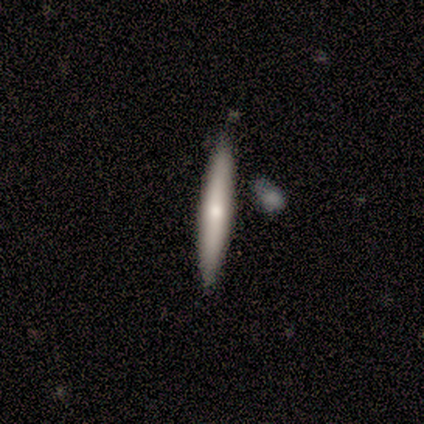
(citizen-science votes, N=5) Smooth or featured: featured or disk — 80% (smooth — 20%)
Edge-on disk: yes — 100%
Edge-on bulge: rounded — 100%
Merging: none — 60% (minor disturbance — 20%)